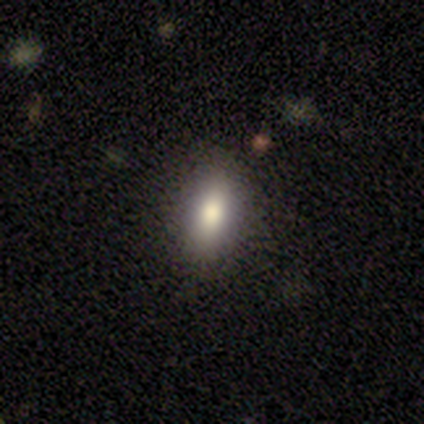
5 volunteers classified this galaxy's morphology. Smooth or featured: smooth — 100%
How rounded: in between — 80% (cigar-shaped — 20%)
Merging: none — 100%